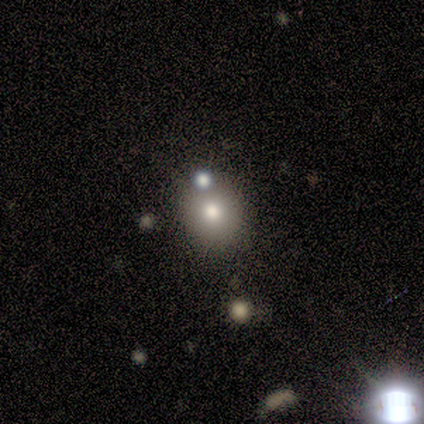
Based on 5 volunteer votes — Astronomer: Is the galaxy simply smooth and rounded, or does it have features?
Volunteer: featured or disk — 40%, tied with star or artifact at 40%.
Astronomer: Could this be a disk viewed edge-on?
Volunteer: no — 100%.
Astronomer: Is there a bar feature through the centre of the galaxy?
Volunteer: no — 100%.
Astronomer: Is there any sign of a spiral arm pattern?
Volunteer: no — 100%.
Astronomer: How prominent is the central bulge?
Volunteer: moderate — 50%, tied with small at 50%.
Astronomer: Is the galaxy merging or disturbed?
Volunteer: none — 100%.